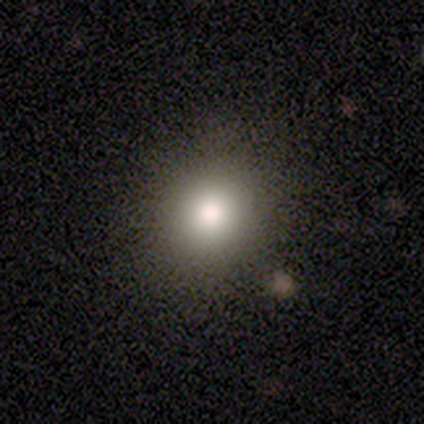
Smooth or featured? 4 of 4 (100%) said smooth. How rounded? 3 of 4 (75%) said round. Merging? 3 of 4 (75%) said none.